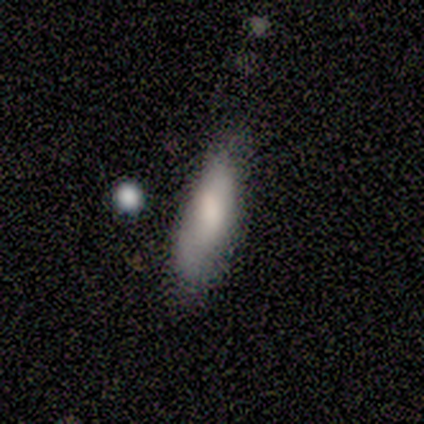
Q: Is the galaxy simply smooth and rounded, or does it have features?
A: smooth — 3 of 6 (50%).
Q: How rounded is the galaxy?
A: cigar-shaped — 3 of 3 (100%).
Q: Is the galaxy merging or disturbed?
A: minor disturbance — 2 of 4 (50%).